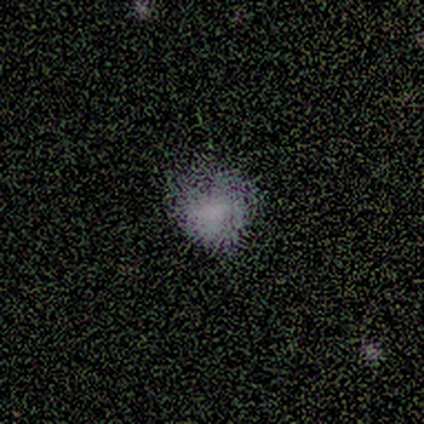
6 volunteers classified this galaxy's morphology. Volunteers were most divided on "smooth or featured": star or artifact: 50%, smooth: 33%, featured or disk: 17%.